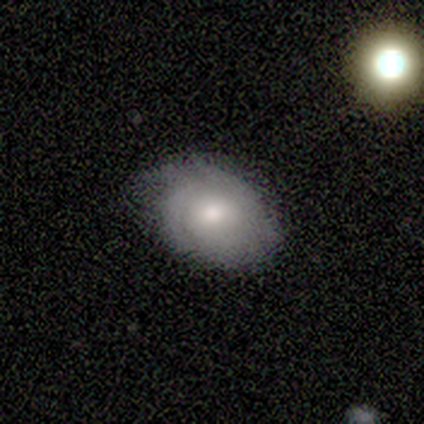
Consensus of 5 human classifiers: Morphology: type=featured or disk (60%); edge-on=no (100%); bar=no (100%); spiral arms=yes (67%); winding=tight (100%); arm count=can't tell (100%); bulge=moderate (67%); merging=none (80%).